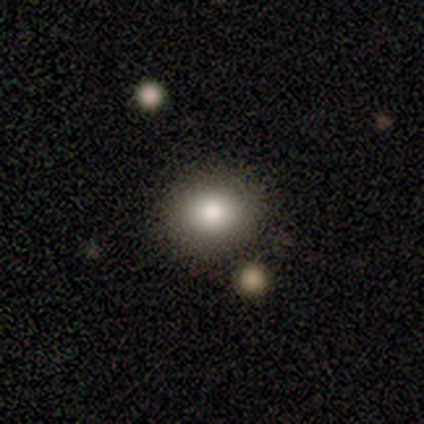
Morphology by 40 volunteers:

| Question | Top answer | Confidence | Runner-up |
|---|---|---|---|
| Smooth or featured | smooth | 78% | star or artifact (12%) |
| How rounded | round | 74% | in between (26%) |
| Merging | none | 80% | minor disturbance (9%) |